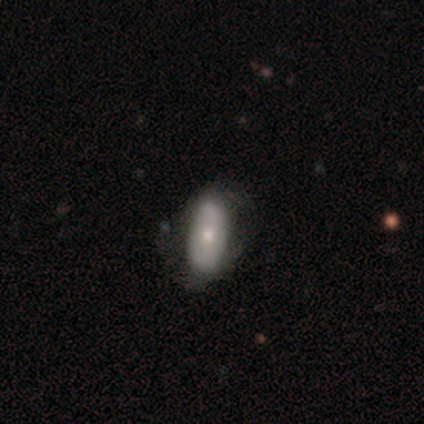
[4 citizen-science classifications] This is possibly a smooth galaxy (50%, tied with featured or disk). How rounded: clearly in between (100%). Merging: likely none (75%).